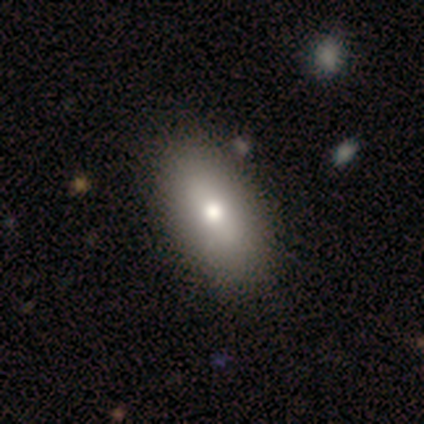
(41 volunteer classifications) Overall: smooth (76%). How rounded: in between (94%). Merging: none (71%).